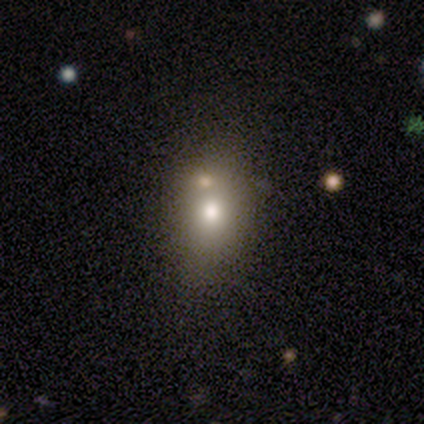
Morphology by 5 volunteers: smooth_or_featured: smooth (p=0.80) [alt: star or artifact p=0.20]
how_rounded: round (p=0.75) [alt: in between p=0.25]
merging: none (p=0.75) [alt: merger p=0.25]